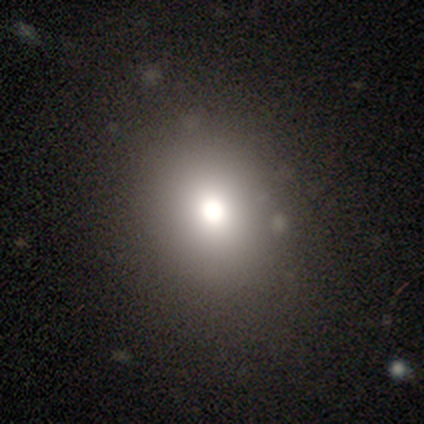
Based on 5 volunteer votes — This is clearly a smooth galaxy (80%). How rounded: likely round (75%). Merging: clearly none (100%).